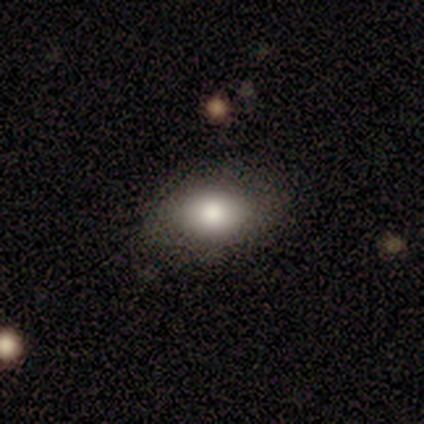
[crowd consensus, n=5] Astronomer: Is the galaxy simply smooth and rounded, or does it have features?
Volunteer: smooth — 80%.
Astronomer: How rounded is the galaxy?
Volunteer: in between — 75%.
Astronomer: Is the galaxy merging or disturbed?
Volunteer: none — 80%.